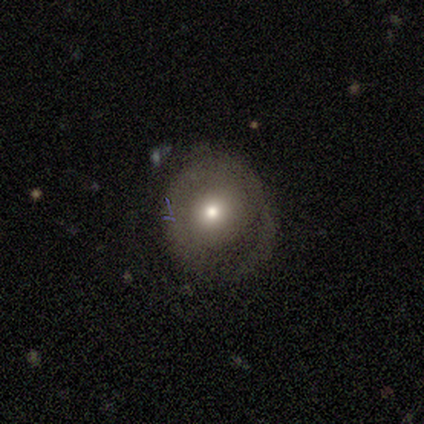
A featured or disk galaxy (62%) with no bar (74%), 1 (36%, tied with can't tell) tight (45%) spiral arms (58%) and a moderate central bulge (58%).

Vote fractions:
- Smooth or featured? featured or disk: 62% / smooth: 35% / star or artifact: 3%
- Edge-on disk? no: 83% / yes: 17%
- Bar? no: 74% / weak: 16% / strong: 11%
- Spiral arms? yes: 58% / no: 42%
- Spiral winding? tight: 45% / loose: 36% / medium: 18%
- Spiral arm count? 1: 36% (tied) / can't tell: 36% (tied) / 3: 27% / 2: 0% / 4: 0% / more than 4: 0%
- Bulge size? moderate: 58% / small: 26% / large: 16% / dominant: 0% / none: 0%
- Merging? none: 56% / minor disturbance: 31% / major disturbance: 11% / merger: 3%